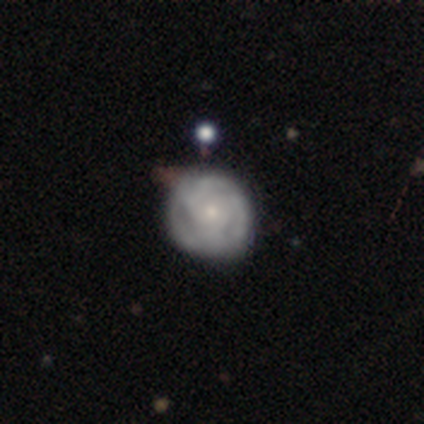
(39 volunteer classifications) Overall: featured or disk (90%). Edge-on disk: no (100%). Bar: no (77%). Spiral arms: yes (80%). Spiral arm count: 3 (54%; can't tell 25%). Spiral winding: tight (57%; medium 32%). Bulge size: small (63%; moderate 26%). Merging: none (42%; minor disturbance 26%).